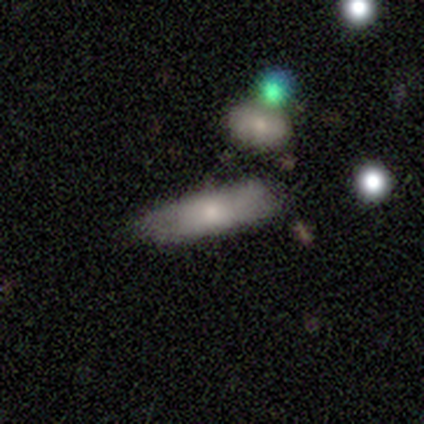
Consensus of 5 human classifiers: A featured or disk galaxy (60%) with no bar (100%), no spiral arms (100%) and a small central bulge (50%, tied with none). Merging: none (60%).